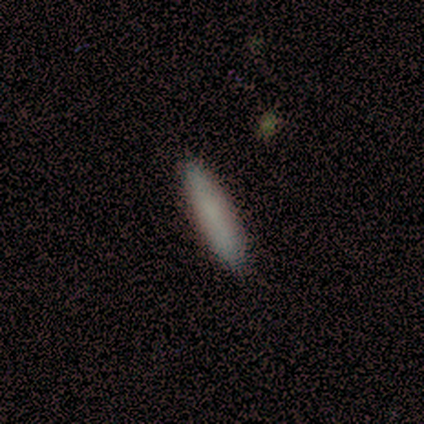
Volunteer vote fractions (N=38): A smooth galaxy with no disk features (87%) that is cigar-shaped (82%). Merging: none (92%).